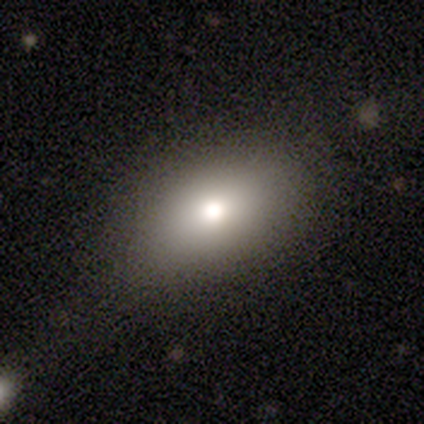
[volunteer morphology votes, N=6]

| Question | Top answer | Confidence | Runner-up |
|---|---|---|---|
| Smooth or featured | smooth | 67% | featured or disk (17%) |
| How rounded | in between | 100% | — |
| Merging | none | 60% | minor disturbance (20%) |